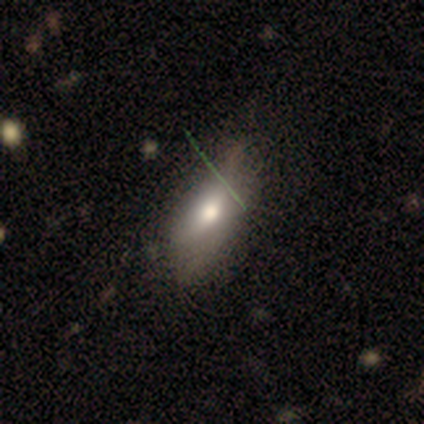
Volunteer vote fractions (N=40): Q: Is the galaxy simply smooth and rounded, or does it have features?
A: smooth — 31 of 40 (78%).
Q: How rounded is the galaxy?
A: in between — 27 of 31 (87%).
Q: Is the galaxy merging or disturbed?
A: minor disturbance — 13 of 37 (35%).